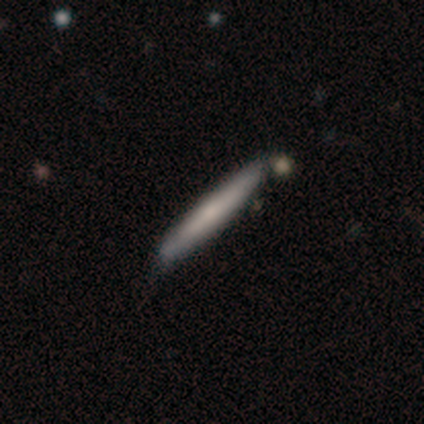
Morphology: type=smooth (60%); roundness=cigar-shaped (100%); merging=none (80%).